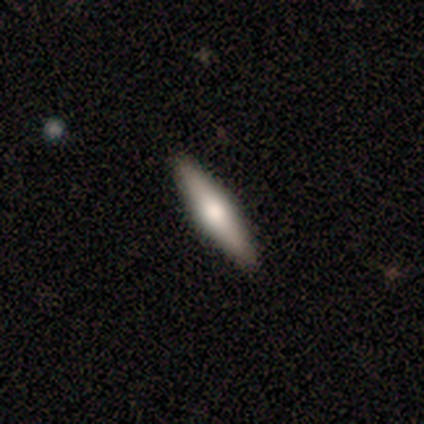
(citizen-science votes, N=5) A featured or disk galaxy (60%) viewed edge-on (100%) with a rounded central bulge (100%). Merging: none (100%).